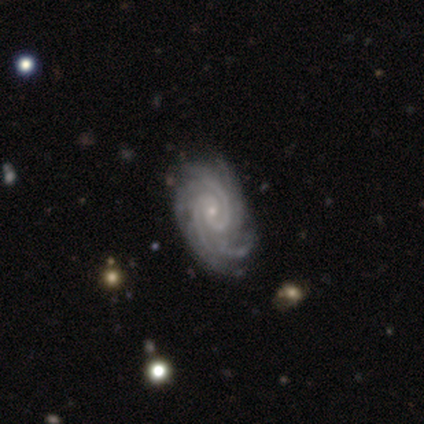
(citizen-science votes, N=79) featured or disk 94%, smooth 4%, star or artifact 3%. Down the decision tree: edge-on disk — no (97%); bar — no (81%); spiral arms — yes (100%); spiral arm count — 2 (29%); spiral winding — tight (75%); bulge size — small (83%); merging — none (38%).